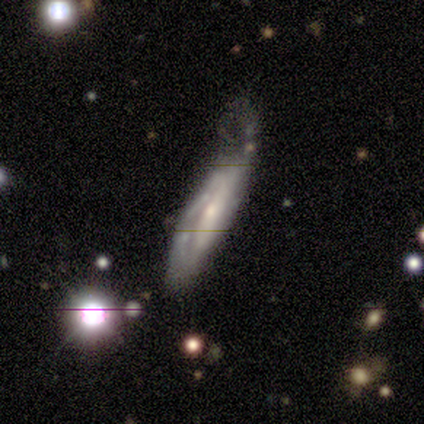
A featured or disk galaxy (67%) with no bar (100%), no spiral arms (100%) and a small central bulge (100%). Merging: none (33%, tied with minor disturbance and merger).